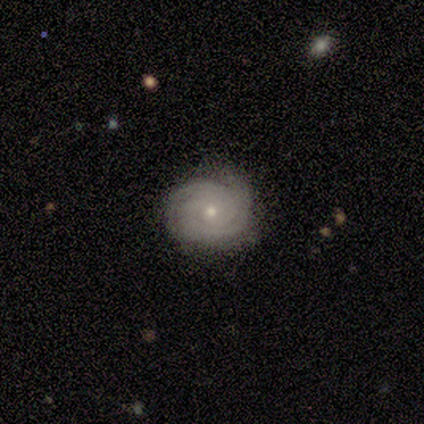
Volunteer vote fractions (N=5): Smooth or featured? featured or disk (100%)
Edge-on disk? no (100%)
Bar? no (100%)
Spiral arms? yes (100%)
Spiral winding? tight (100%)
Spiral arm count? 2 (40%, tied with 3)
Bulge size? small (60%)
Merging? none (100%)